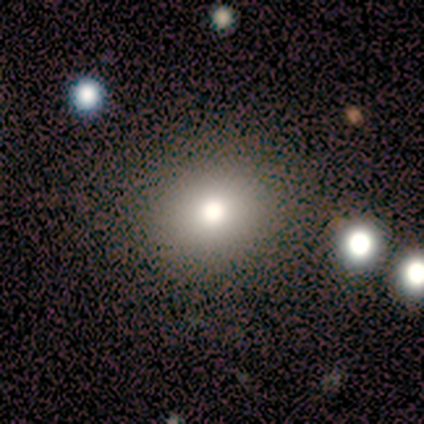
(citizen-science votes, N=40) Q: Smooth or featured?
A: smooth (65%); runner-up: featured or disk (20%)
Q: How rounded?
A: round (85%); runner-up: in between (15%)
Q: Merging?
A: none (91%); runner-up: minor disturbance (6%)